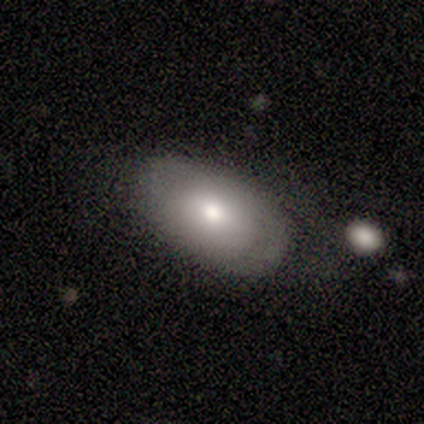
smooth_or_featured: smooth (p=1.00)
how_rounded: in between (p=1.00)
merging: none (p=0.40) [tied with: major disturbance p=0.40]